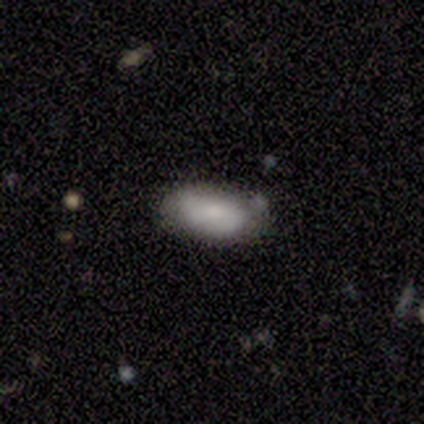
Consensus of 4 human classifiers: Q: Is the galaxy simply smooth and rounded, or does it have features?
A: smooth — 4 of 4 (100%).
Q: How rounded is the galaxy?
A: in between — 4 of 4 (100%).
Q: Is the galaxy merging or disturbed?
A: none — 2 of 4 (50%).